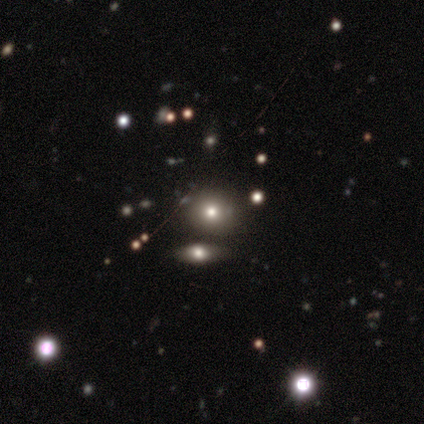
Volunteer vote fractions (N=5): A star or artifact, not a galaxy (60%).